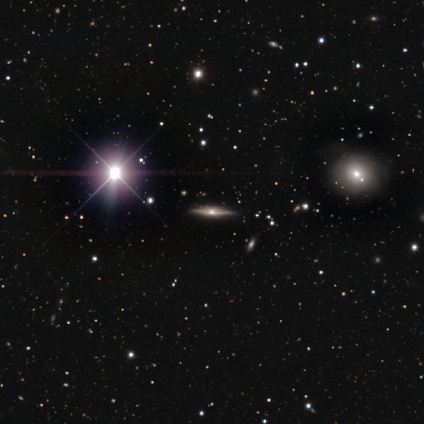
Volunteers were most divided on "smooth or featured" (2-way tie): featured or disk: 45%, star or artifact: 45%, smooth: 11%. More confident: merging — none (90%); edge-on disk — yes (88%); edge-on bulge — rounded (53%).